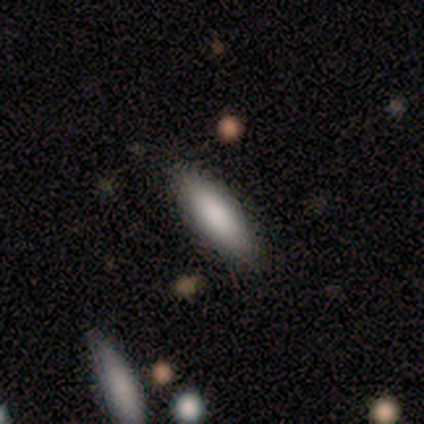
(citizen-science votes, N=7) Smooth or featured? 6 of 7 (86%) said smooth. How rounded? 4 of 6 (67%) said in between. Merging? 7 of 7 (100%) said none.